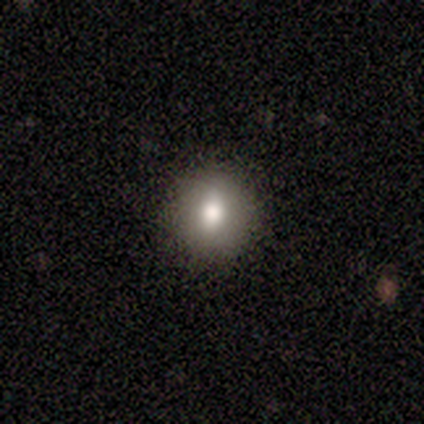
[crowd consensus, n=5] Volunteers were most divided on "smooth or featured": smooth: 80%, star or artifact: 20%, featured or disk: 0%. More confident: how rounded — round (100%); merging — none (100%).